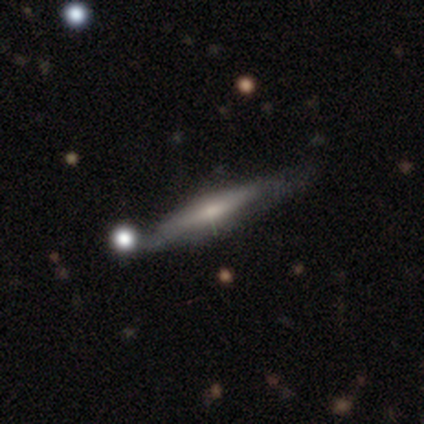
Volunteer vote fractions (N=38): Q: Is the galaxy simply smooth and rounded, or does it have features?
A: featured or disk — 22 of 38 (58%).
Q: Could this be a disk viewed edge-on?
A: yes — 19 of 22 (86%).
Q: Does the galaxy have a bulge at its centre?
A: none — 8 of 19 (42%).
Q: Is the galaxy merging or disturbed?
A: none — 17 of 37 (46%).